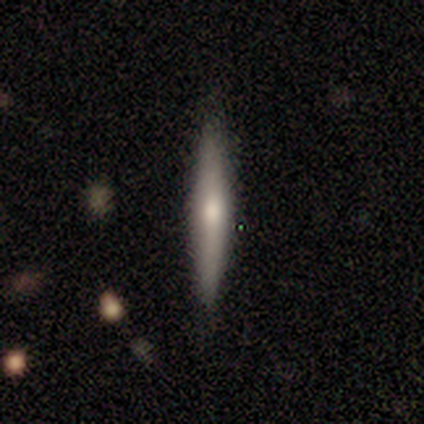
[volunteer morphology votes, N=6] A smooth galaxy with no disk features (50%, tied with featured or disk) that is cigar-shaped (67%). Merging: none (100%).